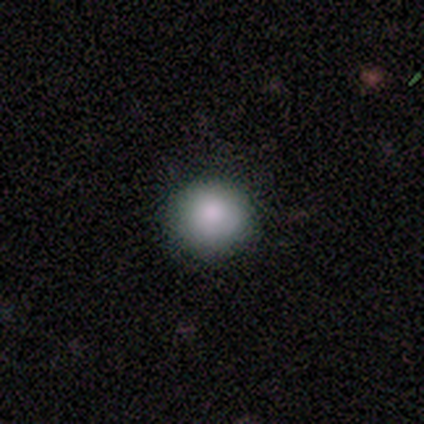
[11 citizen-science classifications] Smooth or featured? 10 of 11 (91%) said smooth. How rounded? 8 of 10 (80%) said round. Merging? 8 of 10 (80%) said none.